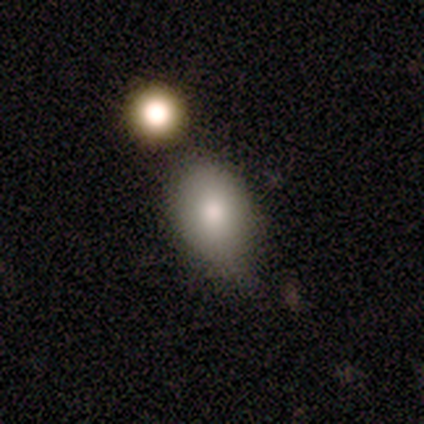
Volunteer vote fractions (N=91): A smooth galaxy with no disk features (74%) that is in between round and cigar-shaped (67%).

Vote fractions:
- Smooth or featured? smooth: 74% / star or artifact: 14% / featured or disk: 12%
- How rounded? in between: 67% / round: 30% / cigar-shaped: 3%
- Merging? none: 54% / minor disturbance: 29% / merger: 13% / major disturbance: 4%